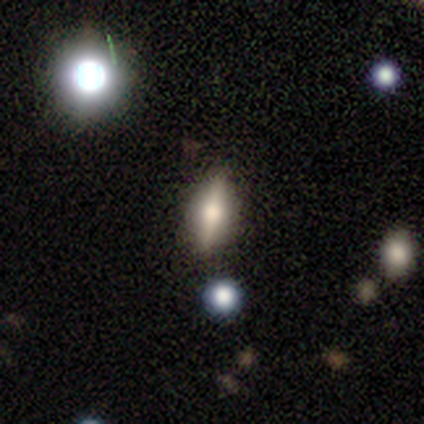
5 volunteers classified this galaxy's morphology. Smooth or featured? smooth (60%)
How rounded? round (33%, tied with in between and cigar-shaped)
Merging? none (60%)